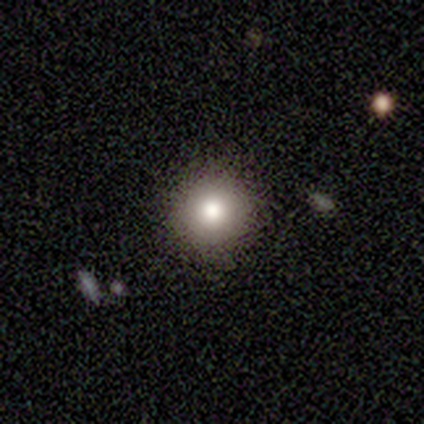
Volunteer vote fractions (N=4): Overall: smooth (100%). How rounded: round (100%). Merging: none (75%).